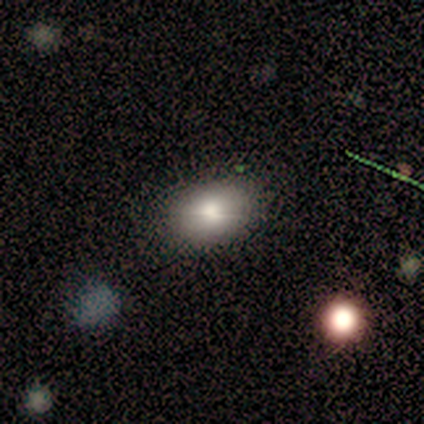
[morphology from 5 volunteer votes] type=smooth (100%); roundness=in between (80%); merging=none (100%).